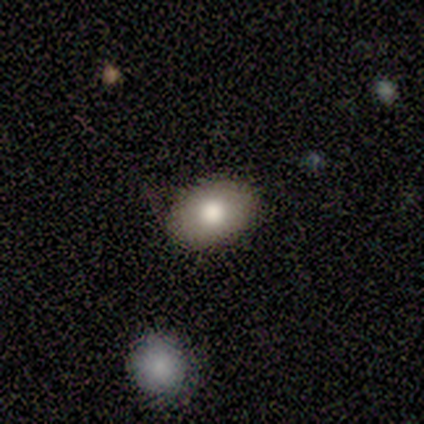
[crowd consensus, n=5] This is clearly a smooth galaxy (100%). How rounded: clearly in between (100%). Merging: clearly none (100%).